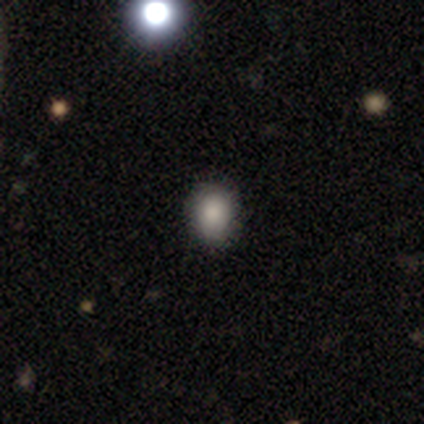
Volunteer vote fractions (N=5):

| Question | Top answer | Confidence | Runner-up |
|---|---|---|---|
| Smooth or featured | smooth | 40% | tied: star or artifact (40%) |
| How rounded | round | 50% | tied: in between (50%) |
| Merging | none | 100% | — |